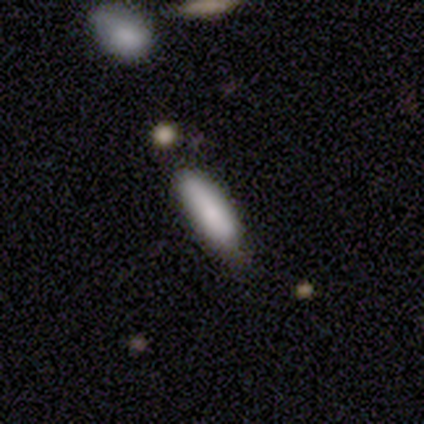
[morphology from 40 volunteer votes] Q: Smooth or featured?
A: smooth (72%); runner-up: featured or disk (20%)
Q: How rounded?
A: cigar-shaped (66%); runner-up: in between (34%)
Q: Merging?
A: none (70%); runner-up: minor disturbance (30%)